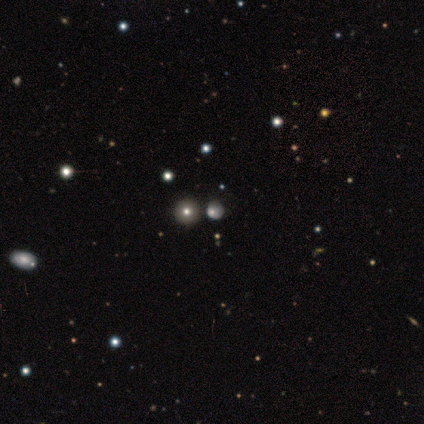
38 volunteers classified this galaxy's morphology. A smooth galaxy with no disk features (53%) that is round (75%).

Vote fractions:
- Smooth or featured? smooth: 53% / star or artifact: 26% / featured or disk: 21%
- How rounded? round: 75% / in between: 25% / cigar-shaped: 0%
- Merging? none: 68% / minor disturbance: 14% / major disturbance: 14% / merger: 4%